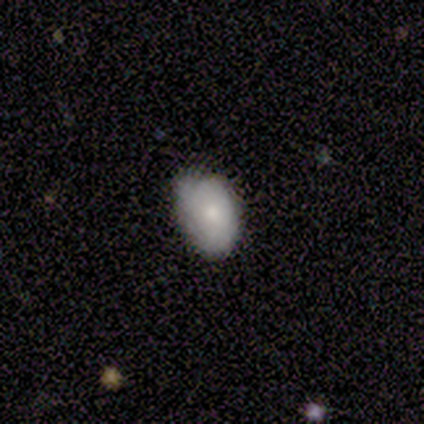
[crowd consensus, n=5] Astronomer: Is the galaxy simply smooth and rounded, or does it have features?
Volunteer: smooth — 100%.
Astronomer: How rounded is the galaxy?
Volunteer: in between — 80%.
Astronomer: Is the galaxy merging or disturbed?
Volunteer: minor disturbance — 60% (runner-up: none, 40%).